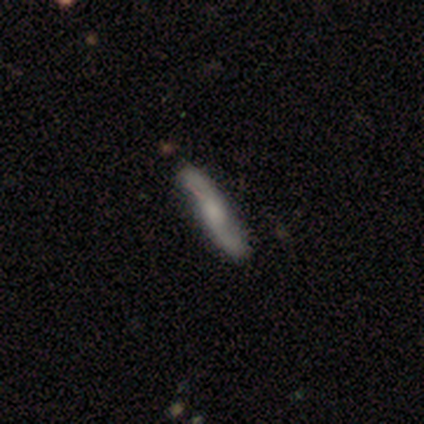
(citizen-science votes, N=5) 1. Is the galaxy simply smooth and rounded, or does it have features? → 60% featured or disk, 40% smooth, 0% star or artifact.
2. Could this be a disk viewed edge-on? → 67% no, 33% yes.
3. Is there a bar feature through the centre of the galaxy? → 50% weak (tied), 50% no (tied), 0% strong.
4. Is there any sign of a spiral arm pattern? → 100% yes, 0% no.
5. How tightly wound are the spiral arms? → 50% medium (tied), 50% loose (tied), 0% tight.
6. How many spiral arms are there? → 100% 2, 0% 1, 0% 3, 0% 4, 0% more than 4, 0% can't tell.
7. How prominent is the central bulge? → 50% large (tied), 50% none (tied), 0% dominant, 0% moderate, 0% small.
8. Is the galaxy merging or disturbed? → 100% none, 0% minor disturbance, 0% major disturbance, 0% merger.